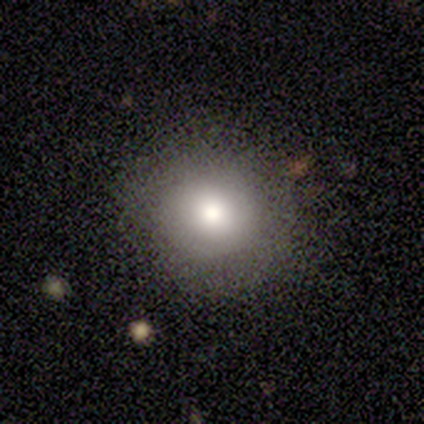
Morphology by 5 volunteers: A smooth galaxy with no disk features (40%, tied with star or artifact) that is round (100%). Merging: none (67%).